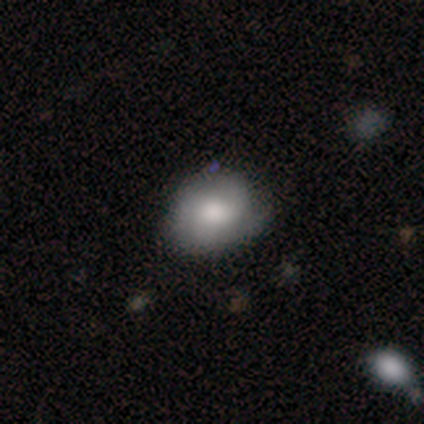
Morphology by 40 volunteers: Smooth or featured? smooth (60%)
How rounded? round (58%)
Merging? minor disturbance (53%)